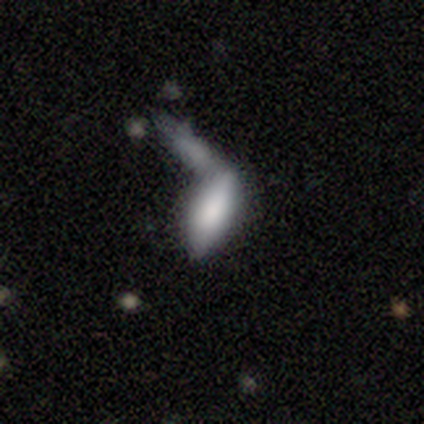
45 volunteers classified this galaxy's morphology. A smooth galaxy with no disk features (60%) that is in between round and cigar-shaped (85%). Merging: merger (62%).